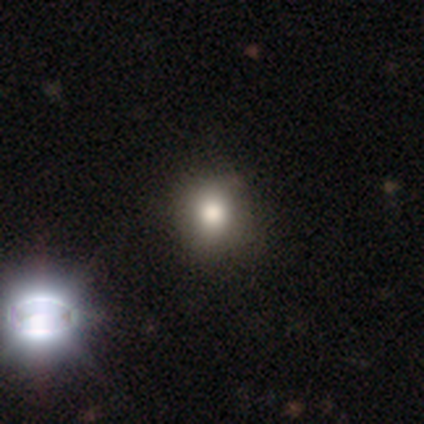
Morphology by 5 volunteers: This is clearly a smooth galaxy (80%). How rounded: clearly round (100%). Merging: likely none (75%).